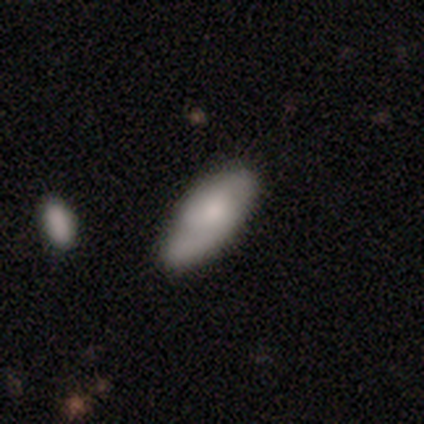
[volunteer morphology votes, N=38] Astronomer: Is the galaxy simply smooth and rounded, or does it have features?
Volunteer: smooth — 55% (runner-up: featured or disk, 42%).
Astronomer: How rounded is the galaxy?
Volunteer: in between — 86%.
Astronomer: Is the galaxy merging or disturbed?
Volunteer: none — 54%.